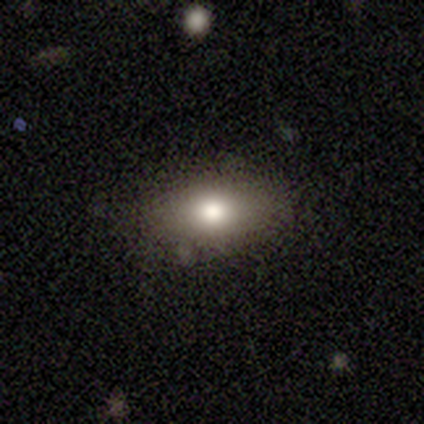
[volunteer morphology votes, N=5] type=smooth (80%); roundness=in between (75%); merging=none (100%).